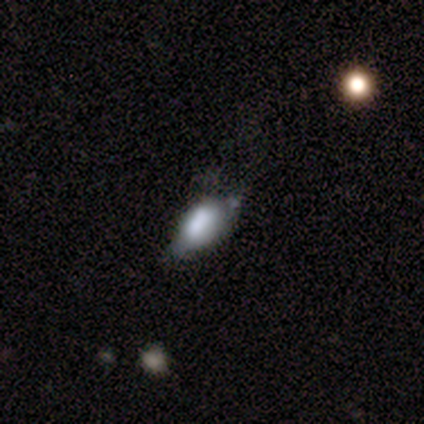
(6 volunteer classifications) smooth 67%, featured or disk 33%, star or artifact 0%. Down the decision tree: how rounded — round (50%, tied with in between); merging — none (50%).